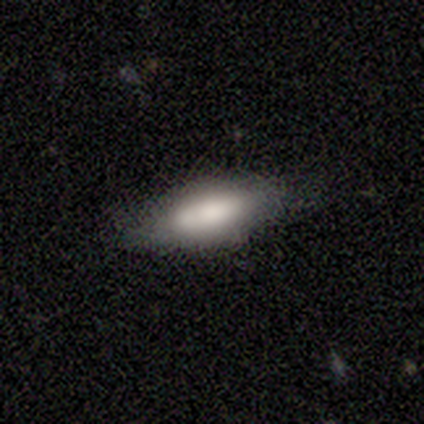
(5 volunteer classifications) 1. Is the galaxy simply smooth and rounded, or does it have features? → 80% smooth, 20% featured or disk, 0% star or artifact.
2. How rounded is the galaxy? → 75% in between, 25% cigar-shaped, 0% round.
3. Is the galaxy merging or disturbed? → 60% none, 40% minor disturbance, 0% major disturbance, 0% merger.